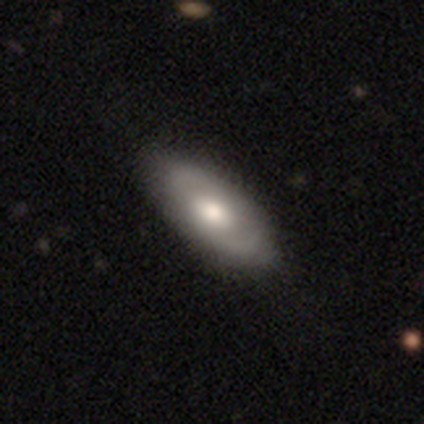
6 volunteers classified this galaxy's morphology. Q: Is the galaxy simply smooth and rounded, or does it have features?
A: smooth — 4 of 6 (67%).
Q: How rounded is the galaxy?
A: in between — 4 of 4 (100%).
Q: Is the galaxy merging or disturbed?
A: none — 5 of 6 (83%).